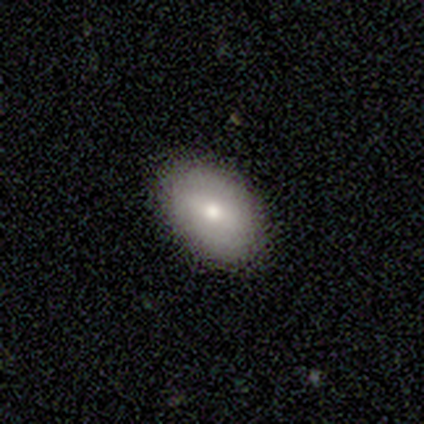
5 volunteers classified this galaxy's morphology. Smooth or featured? smooth (100%)
How rounded? in between (100%)
Merging? none (80%)